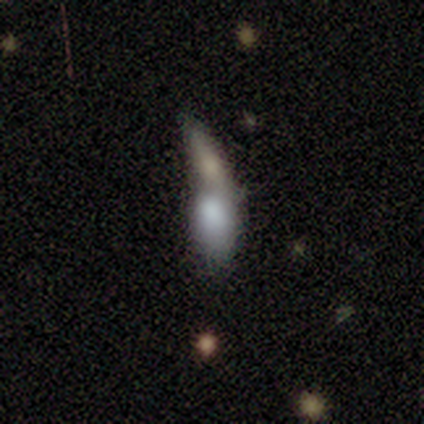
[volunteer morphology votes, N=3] Smooth or featured?
  - smooth: 100% *
  - featured or disk: 0%
  - star or artifact: 0%
How rounded?
  - round: 33% * (tied)
  - in between: 33% * (tied)
  - cigar-shaped: 33% * (tied)
Merging?
  - merger: 100% *
  - none: 0%
  - minor disturbance: 0%
  - major disturbance: 0%